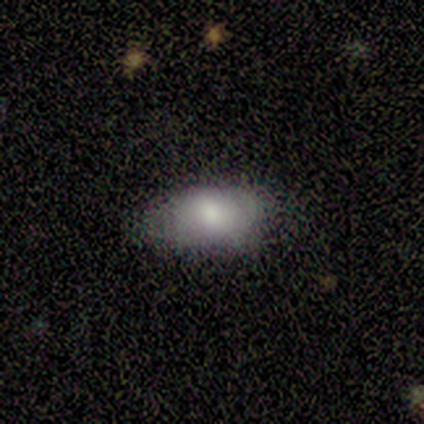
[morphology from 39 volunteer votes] A smooth galaxy with no disk features (67%) that is in between round and cigar-shaped (96%). Merging: none (57%).